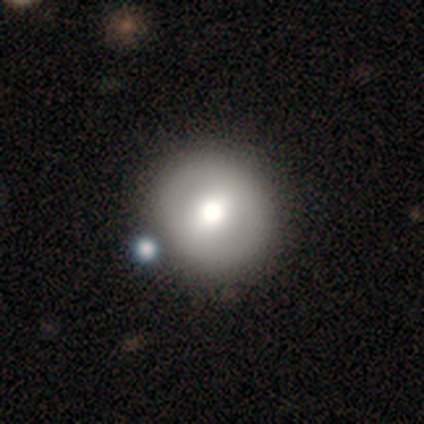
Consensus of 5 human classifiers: This appears to be a smooth galaxy with no disk features (80%) that is round (100%). Merging: none (80%).